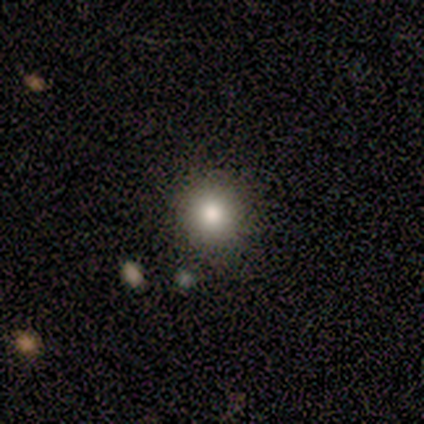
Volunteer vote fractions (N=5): smooth 40% (tied), star or artifact 40% (tied), featured or disk 20%. Down the decision tree: how rounded — round (100%); merging — none (100%).